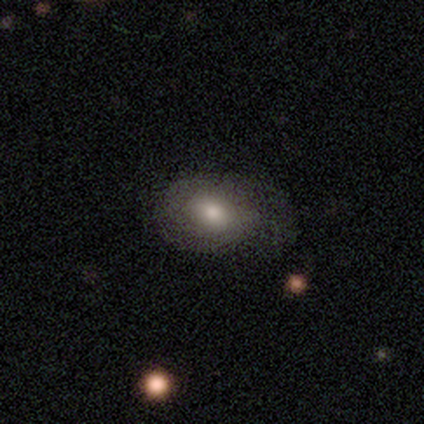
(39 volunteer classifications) Volunteers were most divided on "merging": none: 43%, minor disturbance: 14%, major disturbance: 9%, merger: 0%. More confident: smooth or featured — smooth (82%); how rounded — in between (72%).